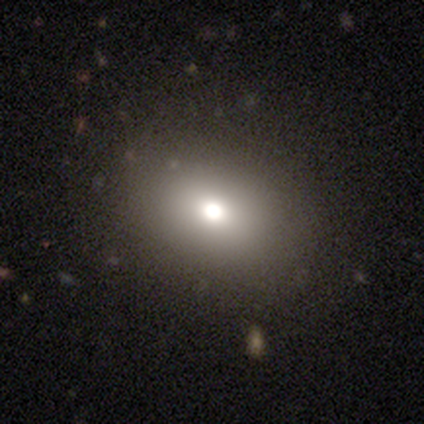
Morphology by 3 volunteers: A smooth galaxy with no disk features (67%) that is in between round and cigar-shaped (100%). Merging: none (100%).